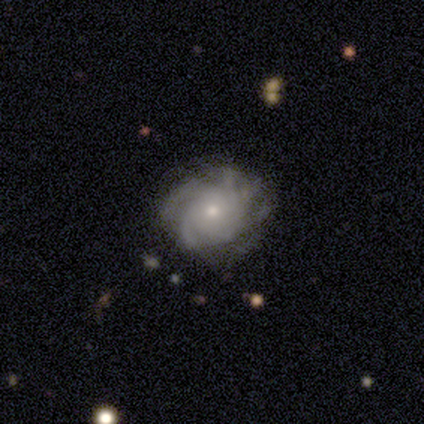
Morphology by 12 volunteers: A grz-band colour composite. It shows a featured or disk galaxy (92%) with no bar (91%), more than 4 (50%) medium (60%) spiral arms (91%) and a small central bulge (73%). Merging: none (83%).